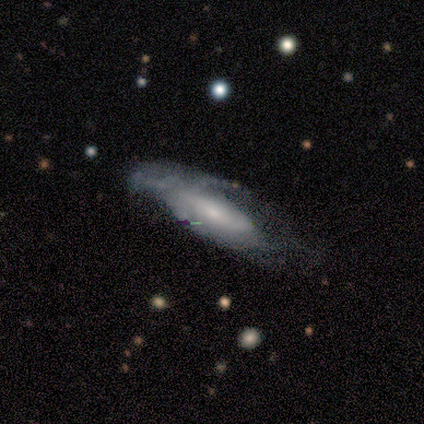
Morphology: type=featured or disk (63%); edge-on=no (69%); bar=no (72%); spiral arms=yes (89%); winding=medium (50%); arm count=can't tell (81%); bulge=small (72%); merging=none (39%).